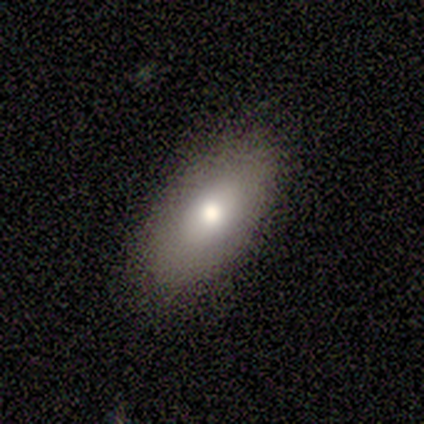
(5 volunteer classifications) Volunteers were most divided on "how rounded": in between: 80%, round: 20%, cigar-shaped: 0%. More confident: smooth or featured — smooth (100%); merging — none (80%).